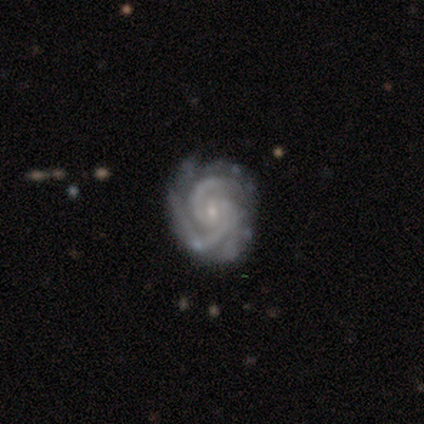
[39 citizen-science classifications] This is clearly a featured or disk galaxy (95%). It is clearly not viewed edge-on (100%). Bar: likely no (68%). Spiral arm pattern: clearly yes (97%). Spiral arm count: possibly 3 (47%). Spiral winding: likely tight (69%). Central bulge: likely small (76%). Merging: likely none (69%).